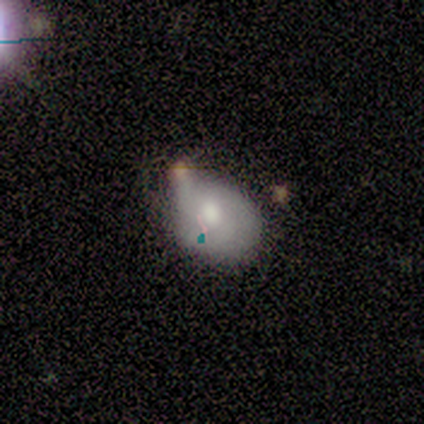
Smooth or featured: smooth — 50% (tied with featured or disk — 50%)
How rounded: in between — 67% (round — 33%)
Merging: minor disturbance — 83% (none — 17%)